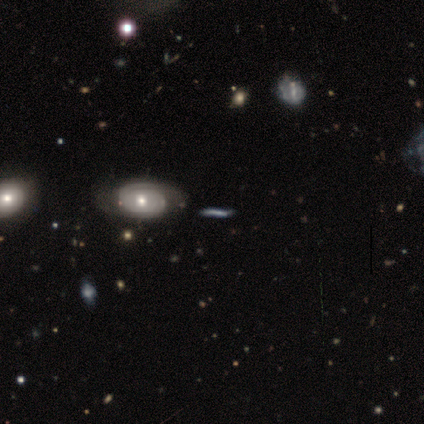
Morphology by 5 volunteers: Q: Smooth or featured?
A: smooth (60%); runner-up: featured or disk (40%)
Q: How rounded?
A: cigar-shaped (100%)
Q: Merging?
A: none (100%)